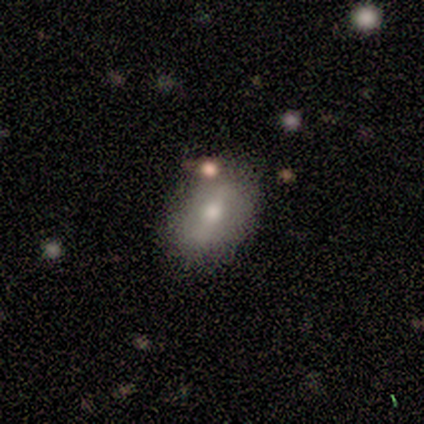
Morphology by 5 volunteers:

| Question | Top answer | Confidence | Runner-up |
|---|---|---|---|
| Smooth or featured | smooth | 80% | featured or disk (20%) |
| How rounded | in between | 100% | — |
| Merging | none | 100% | — |